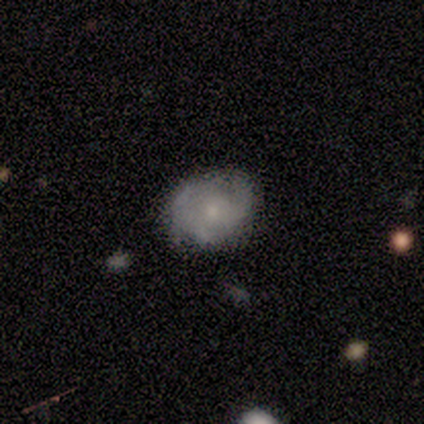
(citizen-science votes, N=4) Volunteers were most divided on "merging": minor disturbance: 67%, none: 33%, major disturbance: 0%, merger: 0%. More confident: how rounded — in between (100%); smooth or featured — smooth (75%).